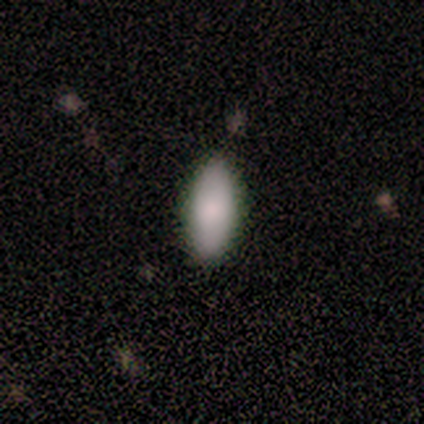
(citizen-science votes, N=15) This is likely a smooth galaxy (73%). How rounded: likely in between (73%). Merging: clearly none (93%).